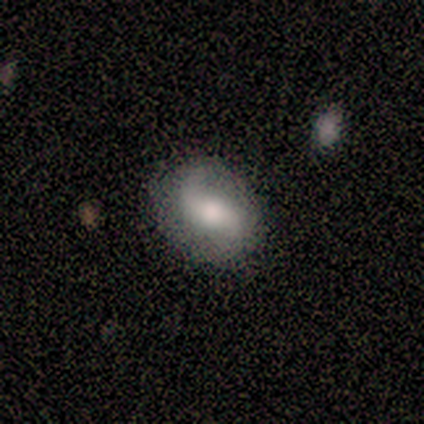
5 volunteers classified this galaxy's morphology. featured or disk 80%, smooth 20%, star or artifact 0%. Down the decision tree: edge-on disk — no (100%); bar — weak (100%); spiral arms — yes (100%); spiral arm count — 2 (100%); spiral winding — loose (100%); bulge size — moderate (100%); merging — none (80%).